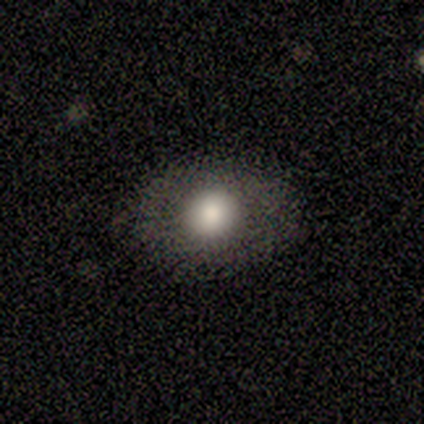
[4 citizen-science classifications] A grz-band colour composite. It shows a smooth galaxy with no disk features (75%) that is round (67%). Merging: none (100%).